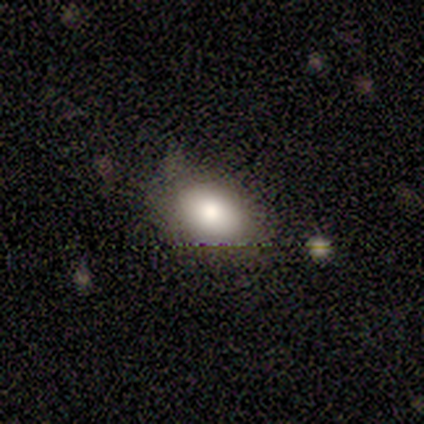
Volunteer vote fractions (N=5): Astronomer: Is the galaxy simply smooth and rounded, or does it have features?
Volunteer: smooth — 80%.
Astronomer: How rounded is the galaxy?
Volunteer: in between — 75%.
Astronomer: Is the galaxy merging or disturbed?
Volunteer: none — 60%.